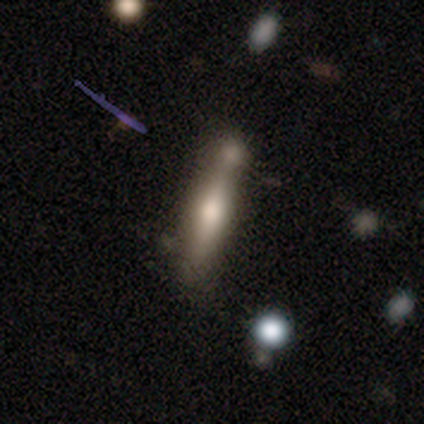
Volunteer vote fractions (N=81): Smooth or featured: smooth — 51% (featured or disk — 42%)
How rounded: cigar-shaped — 90% (in between — 10%)
Merging: merger — 41% (none — 36%)